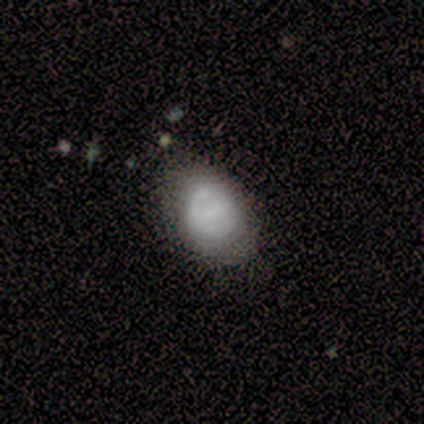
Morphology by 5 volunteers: A featured or disk galaxy (80%) with no bar (75%), no spiral arms (75%) and a small central bulge (75%).

Vote fractions:
- Smooth or featured? featured or disk: 80% / smooth: 20% / star or artifact: 0%
- Edge-on disk? no: 100% / yes: 0%
- Bar? no: 75% / weak: 25% / strong: 0%
- Spiral arms? no: 75% / yes: 25%
- Bulge size? small: 75% / none: 25% / dominant: 0% / large: 0% / moderate: 0%
- Merging? none: 80% / minor disturbance: 20% / major disturbance: 0% / merger: 0%